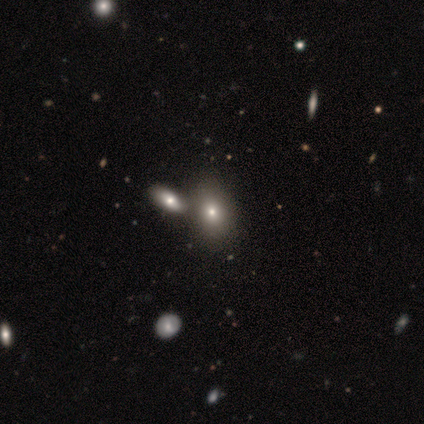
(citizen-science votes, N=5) smooth 60%, featured or disk 20%, star or artifact 20%. Down the decision tree: how rounded — in between (100%); merging — merger (75%).